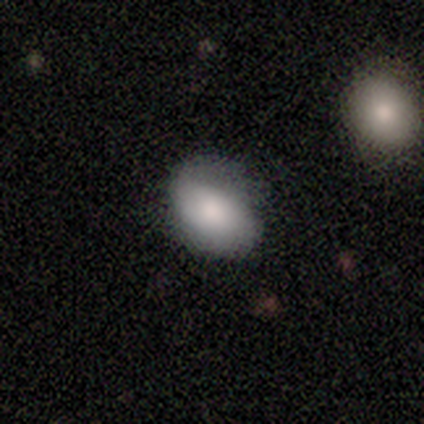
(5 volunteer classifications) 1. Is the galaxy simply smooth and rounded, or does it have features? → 80% smooth, 20% featured or disk, 0% star or artifact.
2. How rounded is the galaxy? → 100% in between, 0% round, 0% cigar-shaped.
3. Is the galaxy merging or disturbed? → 60% none, 40% minor disturbance, 0% major disturbance, 0% merger.